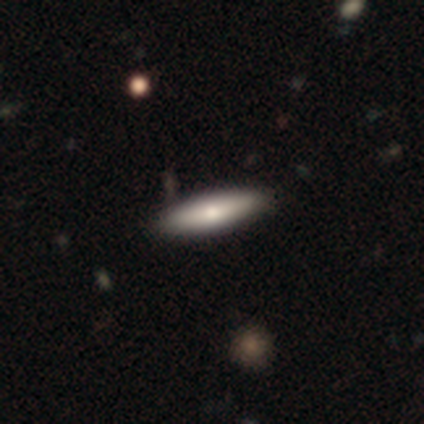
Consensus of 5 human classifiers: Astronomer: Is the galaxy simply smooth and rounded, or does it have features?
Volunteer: smooth — 40%, tied with featured or disk at 40%.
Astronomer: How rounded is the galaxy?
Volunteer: cigar-shaped — 100%.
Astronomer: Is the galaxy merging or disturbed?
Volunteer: none — 100%.